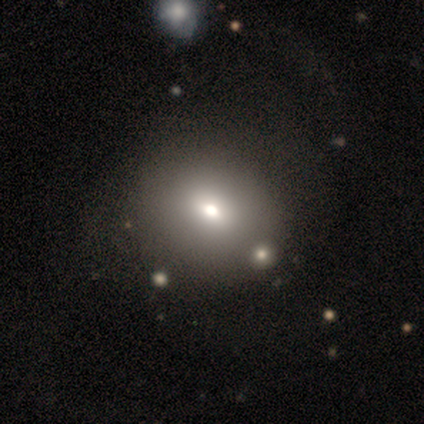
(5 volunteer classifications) This is likely a smooth galaxy (60%). How rounded: likely in between (67%). Merging: marginally none (33%, tied with major disturbance and merger).